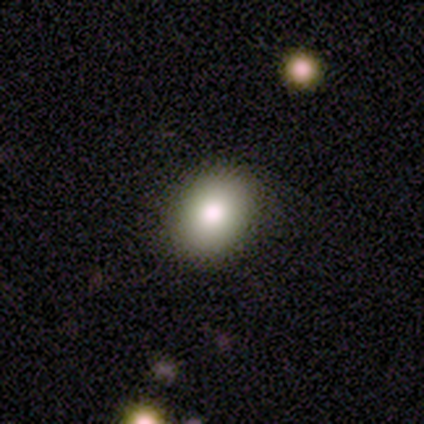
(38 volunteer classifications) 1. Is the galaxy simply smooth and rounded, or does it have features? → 76% smooth, 16% featured or disk, 8% star or artifact.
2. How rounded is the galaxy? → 59% in between, 41% round, 0% cigar-shaped.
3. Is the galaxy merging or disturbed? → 91% none, 6% merger, 3% minor disturbance, 0% major disturbance.